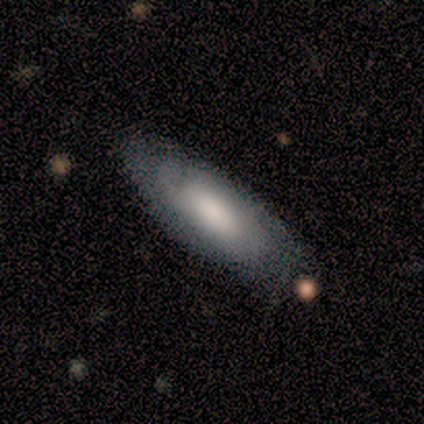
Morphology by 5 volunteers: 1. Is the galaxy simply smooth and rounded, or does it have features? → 60% smooth, 40% featured or disk, 0% star or artifact.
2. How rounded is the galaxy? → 67% cigar-shaped, 33% in between, 0% round.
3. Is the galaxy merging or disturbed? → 60% none, 20% minor disturbance, 20% merger, 0% major disturbance.